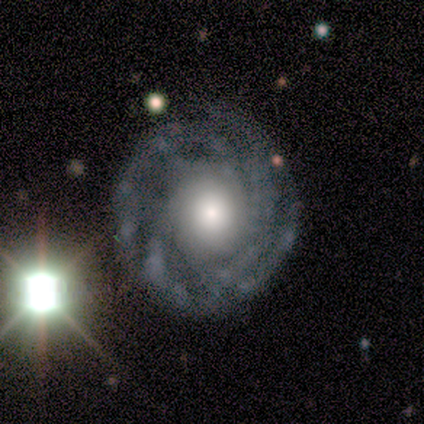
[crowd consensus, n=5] Smooth or featured? 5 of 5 (100%) said featured or disk. Edge-on disk? 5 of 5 (100%) said no. Bar? 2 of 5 (40%, tied with no) said strong. Spiral arms? 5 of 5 (100%) said yes. Spiral winding? 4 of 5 (80%) said tight. Spiral arm count? 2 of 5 (40%, tied with more than 4) said 2. Bulge size? 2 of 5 (40%, tied with moderate) said large. Merging? 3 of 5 (60%) said none.